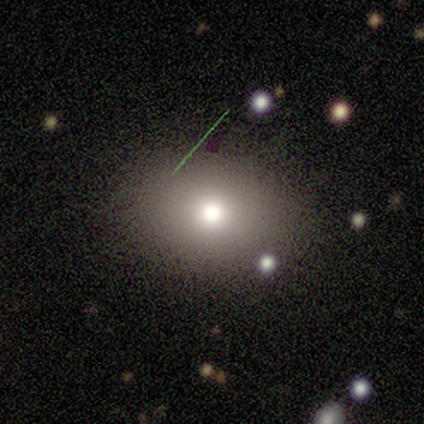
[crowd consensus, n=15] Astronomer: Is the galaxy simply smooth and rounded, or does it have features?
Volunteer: smooth — 73%.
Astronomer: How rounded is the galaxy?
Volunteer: in between — 55% (runner-up: round, 45%).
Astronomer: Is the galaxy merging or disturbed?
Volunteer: none — 100%.